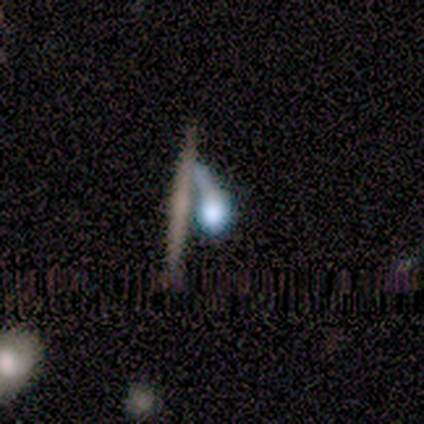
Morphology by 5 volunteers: type=smooth (40%, tied with featured or disk); roundness=round (100%); merging=minor disturbance (50%, tied with merger).